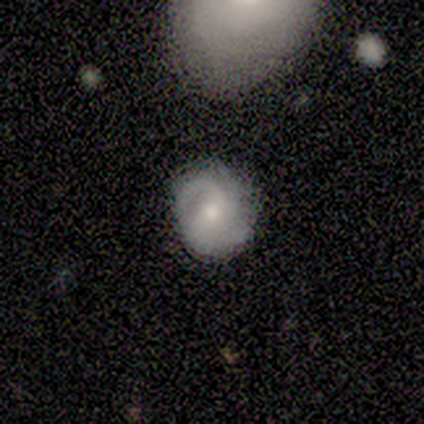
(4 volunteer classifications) Volunteers were most divided on "spiral winding" (2-way tie): tight: 50%, medium: 50%, loose: 0%; "spiral arm count" (2-way tie): 2: 50%, can't tell: 50%, 1: 0%, 3: 0%, 4: 0%, more than 4: 0%; "merging" (2-way tie): none: 50%, minor disturbance: 50%, major disturbance: 0%, merger: 0%. More confident: smooth or featured — featured or disk (100%); edge-on disk — no (100%); spiral arms — yes (100%); bar — no (75%); bulge size — small (75%).